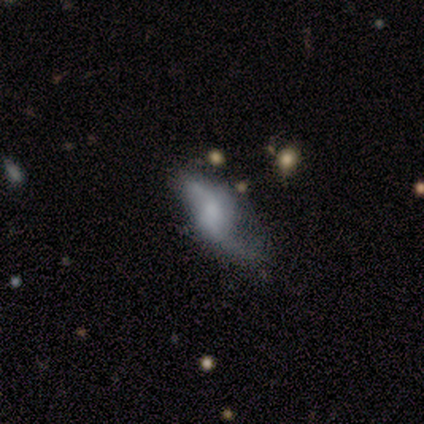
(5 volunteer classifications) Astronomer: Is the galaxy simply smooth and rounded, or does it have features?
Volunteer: featured or disk — 60% (runner-up: smooth, 40%).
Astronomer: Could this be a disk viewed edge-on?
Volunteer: no — 100%.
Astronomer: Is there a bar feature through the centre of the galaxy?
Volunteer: no — 100%.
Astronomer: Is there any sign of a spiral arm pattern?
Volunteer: yes — 67%.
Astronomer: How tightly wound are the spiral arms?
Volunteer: loose — 100%.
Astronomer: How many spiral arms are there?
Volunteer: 2 — 100%.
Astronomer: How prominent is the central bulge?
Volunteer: none — 67%.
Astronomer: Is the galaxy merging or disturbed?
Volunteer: minor disturbance — 40% (runner-up: none, 20%).